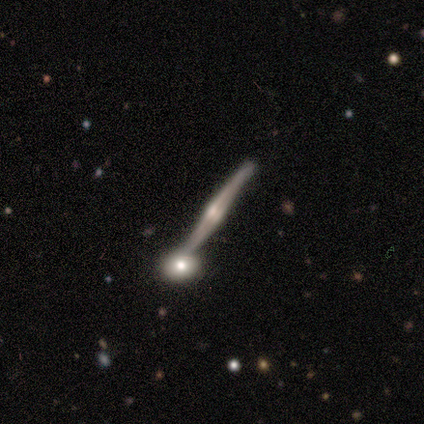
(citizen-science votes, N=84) A featured or disk galaxy (93%) viewed edge-on (96%) with a rounded central bulge (77%). Merging: none (63%).